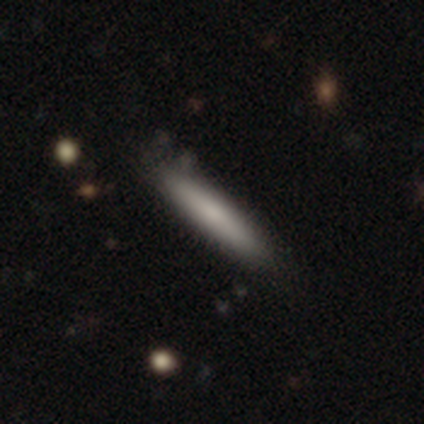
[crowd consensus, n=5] smooth-or-featured: smooth: 100% | featured or disk: 0% | star or artifact: 0%
  how-rounded: cigar-shaped: 100% | round: 0% | in between: 0%
  merging: none: 80% | minor disturbance: 20% | major disturbance: 0% | merger: 0%